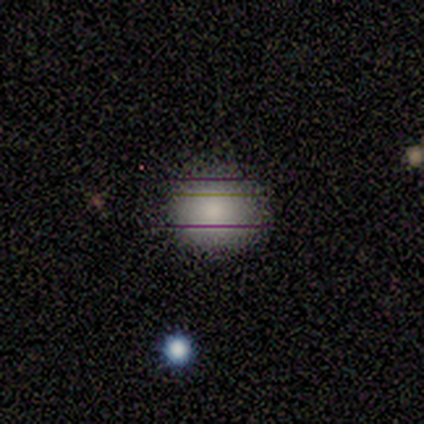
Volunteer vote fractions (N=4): Smooth or featured? smooth (100%)
How rounded? round (100%)
Merging? none (75%)